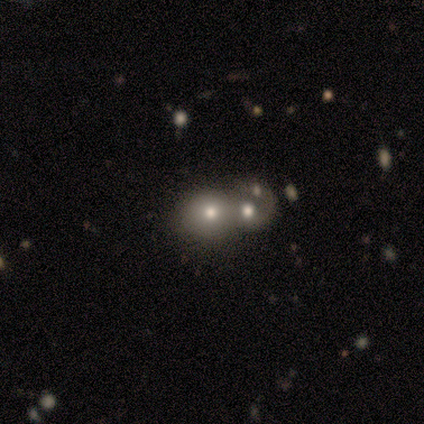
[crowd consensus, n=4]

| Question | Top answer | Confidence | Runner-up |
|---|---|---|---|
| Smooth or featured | smooth | 75% | star or artifact (25%) |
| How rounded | round | 67% | in between (33%) |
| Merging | merger | 67% | none (33%) |